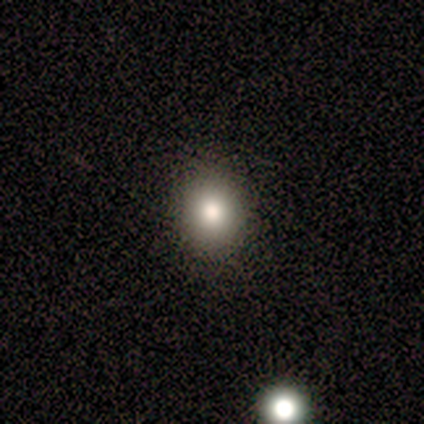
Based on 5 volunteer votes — Smooth or featured? smooth (80%)
How rounded? round (100%)
Merging? none (100%)